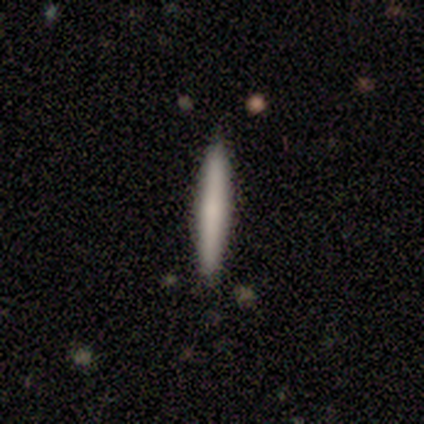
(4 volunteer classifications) Smooth or featured?
  - smooth: 100% *
  - featured or disk: 0%
  - star or artifact: 0%
How rounded?
  - cigar-shaped: 100% *
  - round: 0%
  - in between: 0%
Merging?
  - none: 100% *
  - minor disturbance: 0%
  - major disturbance: 0%
  - merger: 0%